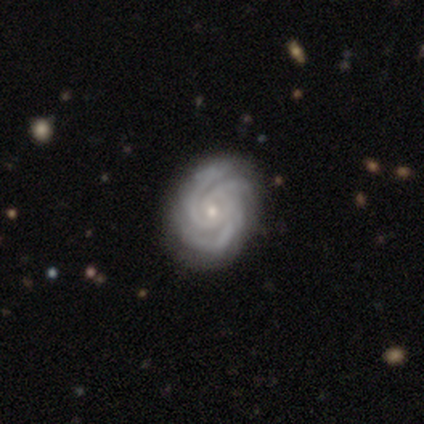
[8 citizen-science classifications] This is clearly a featured or disk galaxy (100%). It is clearly not viewed edge-on (100%). Bar: clearly no (88%). Spiral arm pattern: clearly yes (100%). Spiral arm count: possibly 3 (50%). Spiral winding: likely tight (75%). Central bulge: likely small (75%). Merging: clearly none (88%).